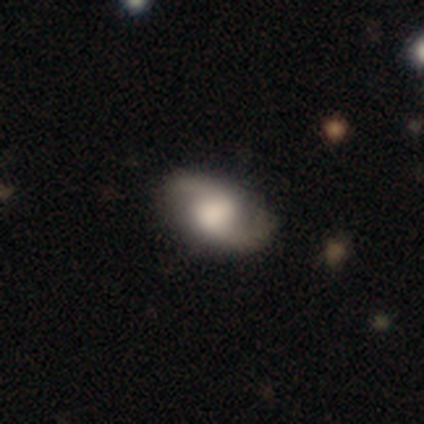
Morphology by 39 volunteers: Smooth or featured?
  - featured or disk: 77% *
  - smooth: 18%
  - star or artifact: 5%
Edge-on disk?
  - no: 97% *
  - yes: 3%
Bar?
  - no: 62% *
  - weak: 34%
  - strong: 3%
Spiral arms?
  - yes: 100% *
  - no: 0%
Spiral winding?
  - loose: 55% *
  - medium: 34%
  - tight: 10%
Spiral arm count?
  - 2: 97% *
  - can't tell: 3%
  - 1: 0%
  - 3: 0%
  - 4: 0%
  - more than 4: 0%
Bulge size?
  - large: 52% *
  - moderate: 24%
  - none: 14%
  - dominant: 7%
  - small: 3%
Merging?
  - none: 86% *
  - minor disturbance: 8%
  - major disturbance: 5%
  - merger: 0%